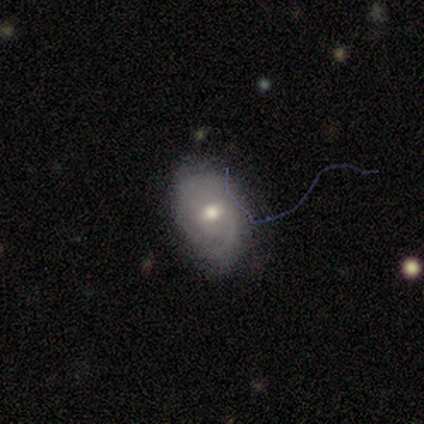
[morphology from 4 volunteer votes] Smooth or featured? featured or disk (75%)
Edge-on disk? no (100%)
Bar? no (67%)
Spiral arms? yes (67%)
Spiral winding? tight (50%, tied with medium)
Spiral arm count? can't tell (100%)
Bulge size? moderate (67%)
Merging? none (100%)